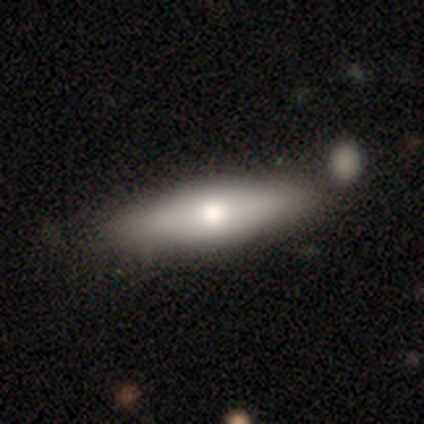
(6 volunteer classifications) Volunteers were most divided on "smooth or featured" (2-way tie): smooth: 50%, featured or disk: 50%, star or artifact: 0%; "merging" (3-way tie): none: 33%, minor disturbance: 33%, merger: 33%, major disturbance: 0%. More confident: how rounded — cigar-shaped (67%).